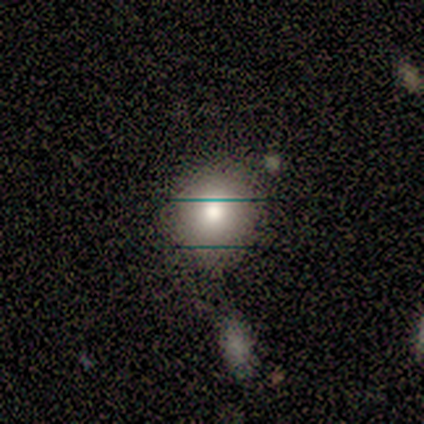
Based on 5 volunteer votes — Smooth or featured? 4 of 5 (80%) said smooth. How rounded? 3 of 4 (75%) said round. Merging? 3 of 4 (75%) said none.